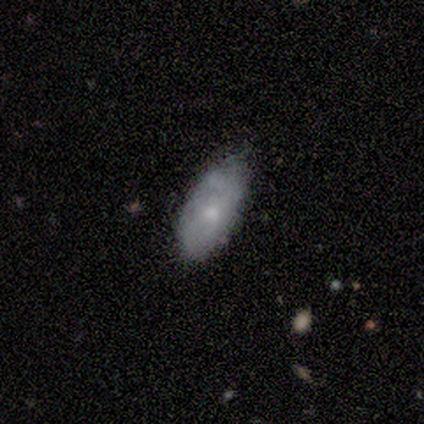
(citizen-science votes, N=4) smooth_or_featured: smooth (p=0.75) [alt: featured or disk p=0.25]
how_rounded: in between (p=1.00)
merging: none (p=0.75) [alt: minor disturbance p=0.25]